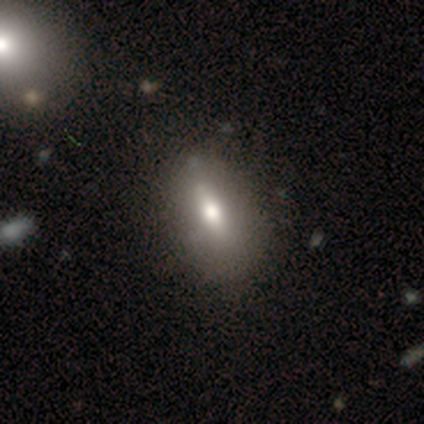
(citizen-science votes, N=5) This appears to be a smooth galaxy with no disk features (80%) that is in between round and cigar-shaped (100%). Merging: minor disturbance (60%).